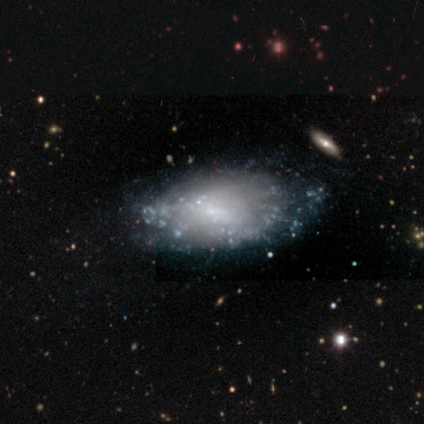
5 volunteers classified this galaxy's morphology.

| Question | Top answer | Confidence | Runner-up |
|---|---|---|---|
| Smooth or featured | smooth | 40% | tied: featured or disk (40%) |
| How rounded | in between | 100% | — |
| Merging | none | 50% | tied: minor disturbance (50%) |